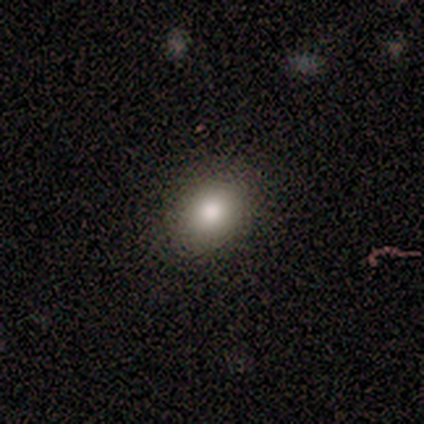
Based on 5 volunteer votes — This appears to be a smooth galaxy with no disk features (100%) that is in between round and cigar-shaped (80%). Merging: none (100%).